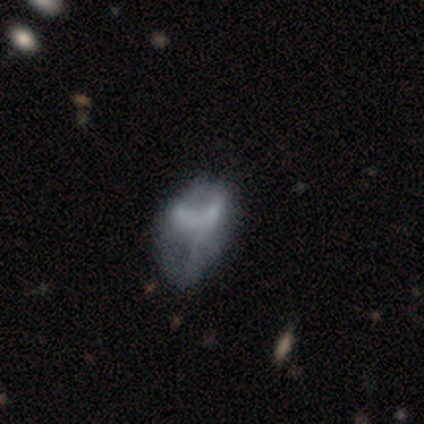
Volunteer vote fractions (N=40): smooth_or_featured: featured or disk (p=0.60) [alt: smooth p=0.30]
disk_edge_on: no (p=0.96) [alt: yes p=0.04]
bar: no (p=0.83) [alt: weak p=0.17]
has_spiral_arms: no (p=0.87) [alt: yes p=0.13]
bulge_size: none (p=0.91) [alt: moderate p=0.09]
merging: major disturbance (p=0.25) [alt: none p=0.17]